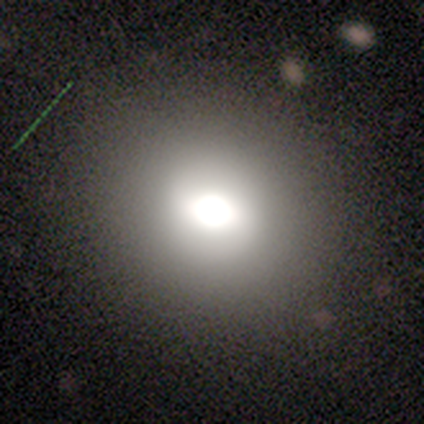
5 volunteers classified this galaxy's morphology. Smooth or featured: smooth — 100%
How rounded: round — 60% (in between — 40%)
Merging: none — 100%